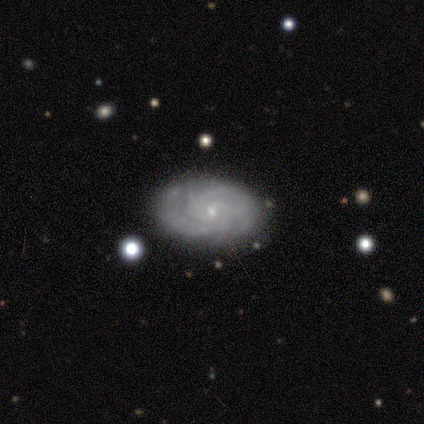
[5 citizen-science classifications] smooth-or-featured: featured or disk: 60% | smooth: 40% | star or artifact: 0%
  disk-edge-on: no: 100% | yes: 0%
    bar: no: 100% | strong: 0% | weak: 0%
    has-spiral-arms: no: 67% | yes: 33%
    bulge-size: small: 100% | dominant: 0% | large: 0% | moderate: 0% | none: 0%
  merging: none: 80% | minor disturbance: 20% | major disturbance: 0% | merger: 0%